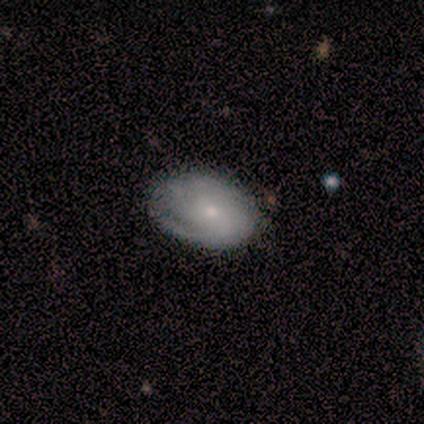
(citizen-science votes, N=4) This appears to be a featured or disk galaxy (75%) with a weak bar (67%), 2 (33%, tied with 3 and can't tell) tight (100%) spiral arms (100%) and a dominant central bulge (33%, tied with moderate and small). Merging: none (50%, tied with minor disturbance).